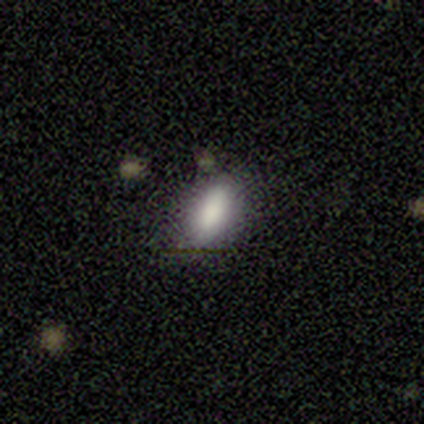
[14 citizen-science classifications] Smooth or featured? smooth (100%)
How rounded? in between (57%)
Merging? none (64%)